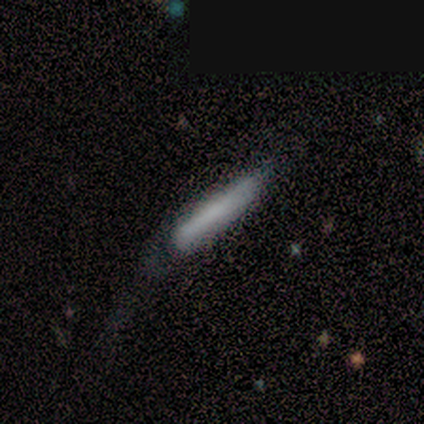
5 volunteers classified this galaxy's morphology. A featured or disk galaxy (60%) viewed edge-on (67%) with a boxy central bulge (50%, tied with rounded).

Vote fractions:
- Smooth or featured? featured or disk: 60% / smooth: 40% / star or artifact: 0%
- Edge-on disk? yes: 67% / no: 33%
- Edge-on bulge? boxy: 50% (tied) / rounded: 50% (tied) / none: 0%
- Merging? none: 60% / minor disturbance: 40% / major disturbance: 0% / merger: 0%